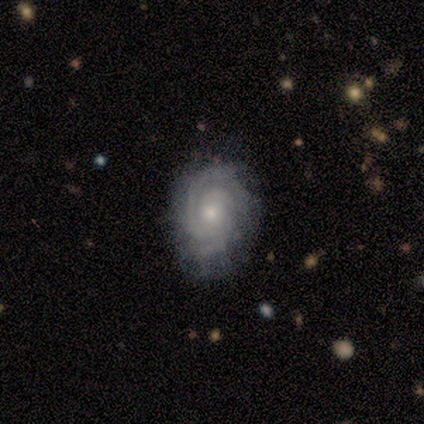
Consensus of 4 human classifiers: Volunteers were most divided on "spiral winding" (2-way tie): tight: 50%, medium: 50%, loose: 0%; "merging" (2-way tie): none: 50%, minor disturbance: 50%, major disturbance: 0%, merger: 0%. More confident: smooth or featured — featured or disk (100%); edge-on disk — no (100%); spiral arms — yes (100%); bar — no (75%); spiral arm count — 2 (75%); bulge size — small (75%).